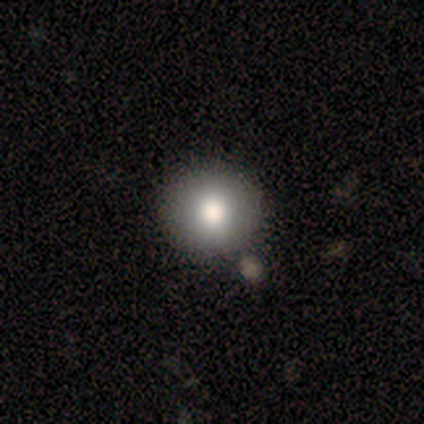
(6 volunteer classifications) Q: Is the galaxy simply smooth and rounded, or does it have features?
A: smooth — 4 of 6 (67%).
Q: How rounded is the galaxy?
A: round — 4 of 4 (100%).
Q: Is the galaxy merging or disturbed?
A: none — 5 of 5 (100%).